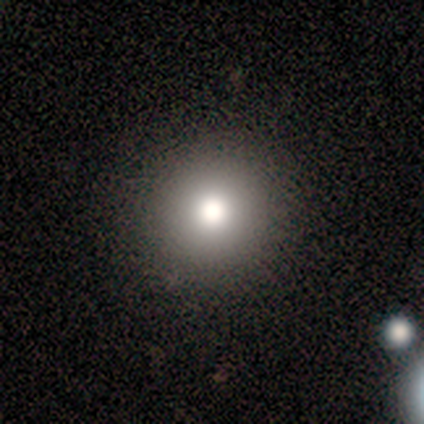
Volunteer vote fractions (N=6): A smooth galaxy with no disk features (100%) that is round (100%). Merging: none (100%).